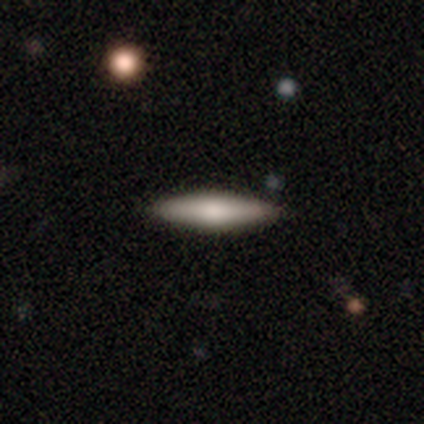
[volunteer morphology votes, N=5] Overall: smooth (80%). How rounded: cigar-shaped (100%). Merging: none (100%).